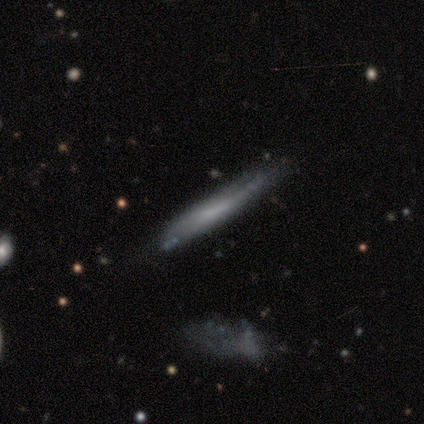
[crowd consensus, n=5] Morphology: type=featured or disk (60%); edge-on=yes (100%); edge-on bulge=none (100%); merging=none (80%).